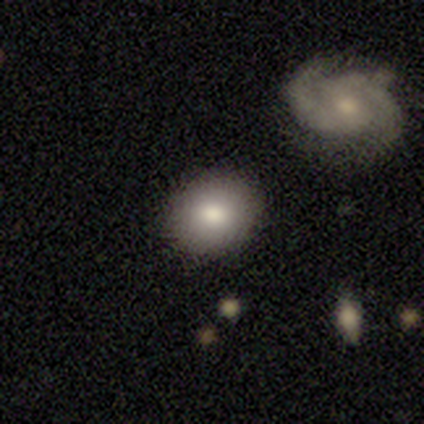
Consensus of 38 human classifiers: smooth 79%, featured or disk 13%, star or artifact 8%. Down the decision tree: how rounded — round (63%); merging — none (89%).